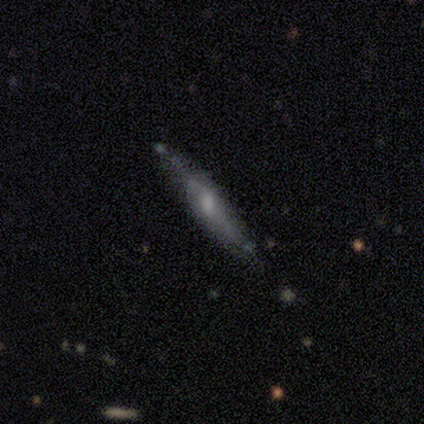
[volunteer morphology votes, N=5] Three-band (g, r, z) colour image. It shows a smooth galaxy with no disk features (60%) that is cigar-shaped (100%). Merging: none (60%).